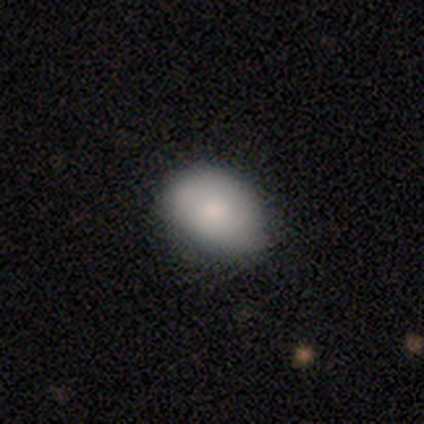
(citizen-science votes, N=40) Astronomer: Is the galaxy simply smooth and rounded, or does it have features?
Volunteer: smooth — 75%.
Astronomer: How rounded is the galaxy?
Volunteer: in between — 83%.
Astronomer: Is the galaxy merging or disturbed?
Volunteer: none — 77%.